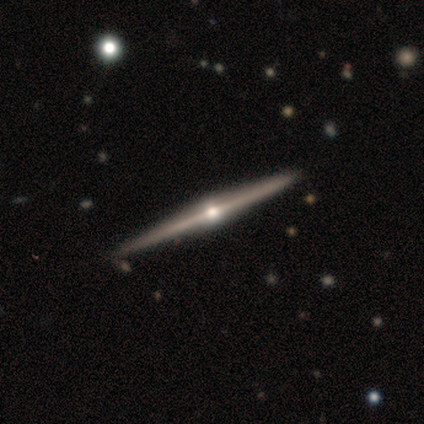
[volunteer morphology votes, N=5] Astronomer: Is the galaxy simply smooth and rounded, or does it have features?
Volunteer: featured or disk — 100%.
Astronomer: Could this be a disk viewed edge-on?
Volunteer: yes — 100%.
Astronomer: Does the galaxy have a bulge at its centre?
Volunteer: rounded — 100%.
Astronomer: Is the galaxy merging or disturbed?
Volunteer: none — 80%.